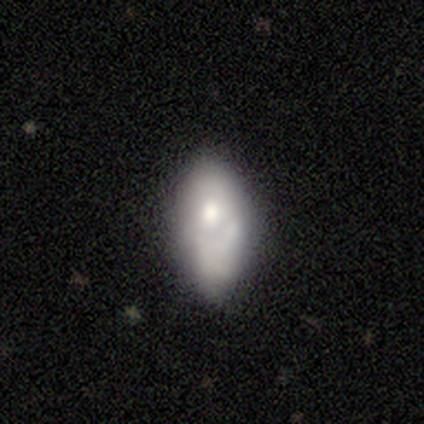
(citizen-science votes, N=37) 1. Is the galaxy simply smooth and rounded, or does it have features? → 68% smooth, 24% featured or disk, 8% star or artifact.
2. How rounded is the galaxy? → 92% in between, 8% cigar-shaped, 0% round.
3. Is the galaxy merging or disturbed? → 47% none, 29% minor disturbance, 15% major disturbance, 9% merger.